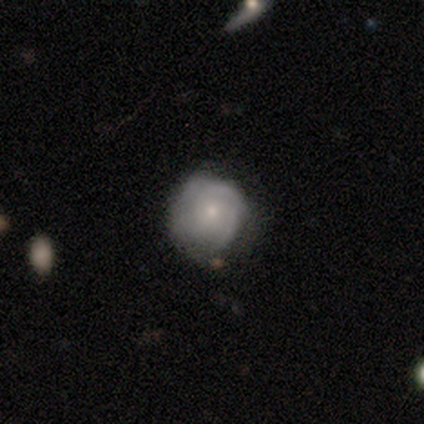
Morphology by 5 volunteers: This is likely a smooth galaxy (60%). How rounded: clearly round (100%). Merging: likely none (60%).